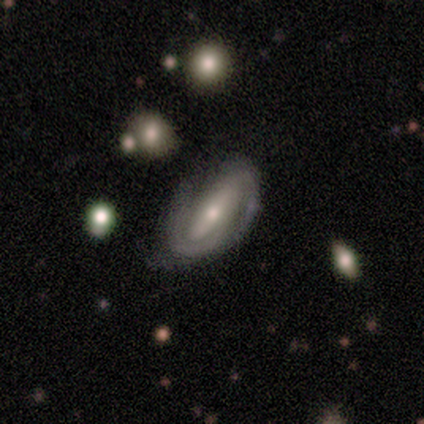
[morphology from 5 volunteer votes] smooth_or_featured: featured or disk (p=1.00)
disk_edge_on: no (p=1.00)
bar: no (p=0.60) [alt: strong p=0.20]
has_spiral_arms: yes (p=1.00)
spiral_winding: tight (p=0.40) [tied with: medium p=0.40]
spiral_arm_count: 2 (p=1.00)
bulge_size: moderate (p=0.80) [alt: small p=0.20]
merging: none (p=0.80) [alt: minor disturbance p=0.20]